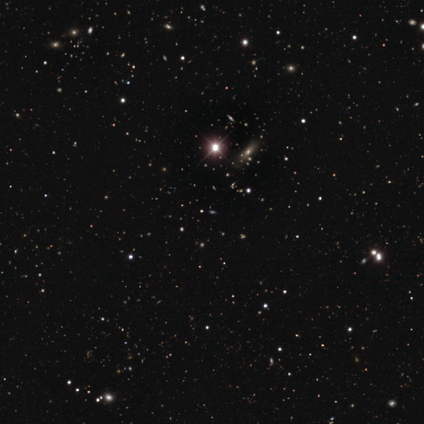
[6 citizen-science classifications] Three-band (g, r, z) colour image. It shows a star or artifact, not a galaxy (100%).